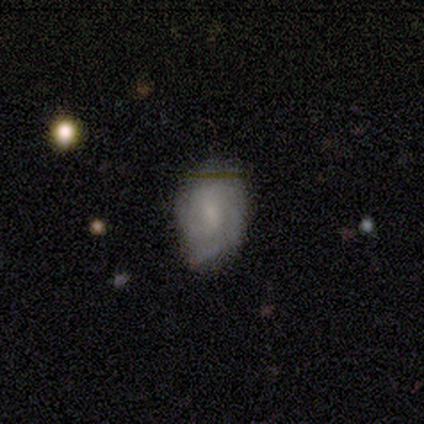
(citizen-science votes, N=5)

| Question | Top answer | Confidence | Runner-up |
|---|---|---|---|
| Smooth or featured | smooth | 60% | featured or disk (20%) |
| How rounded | in between | 100% | — |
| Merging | none | 50% | major disturbance (25%) |